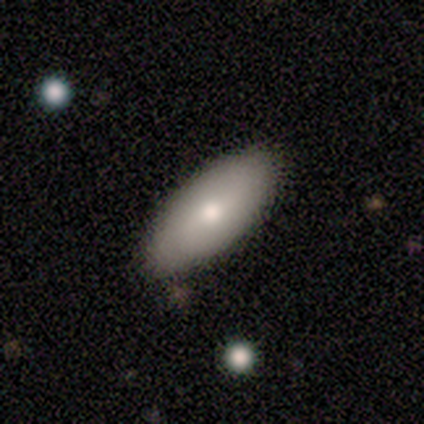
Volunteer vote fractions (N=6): Overall: smooth (83%). How rounded: in between (100%). Merging: none (83%).